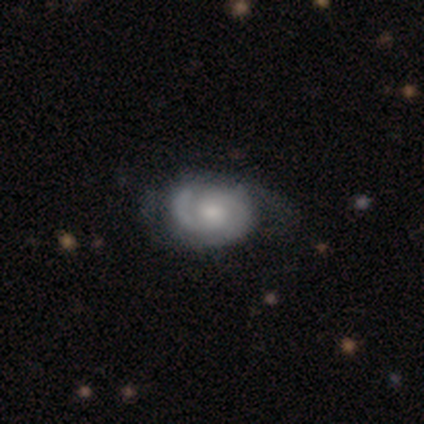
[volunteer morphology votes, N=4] Smooth or featured? featured or disk (50%)
Edge-on disk? no (100%)
Bar? no (100%)
Spiral arms? yes (100%)
Spiral winding? tight (50%, tied with medium)
Spiral arm count? 2 (100%)
Bulge size? moderate (50%, tied with small)
Merging? none (67%)